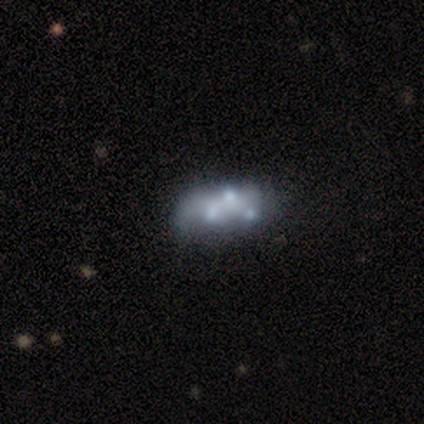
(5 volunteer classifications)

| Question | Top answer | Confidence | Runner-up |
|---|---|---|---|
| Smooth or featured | smooth | 40% | tied: featured or disk (40%) |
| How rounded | in between | 100% | — |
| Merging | minor disturbance | 50% | none (25%) |